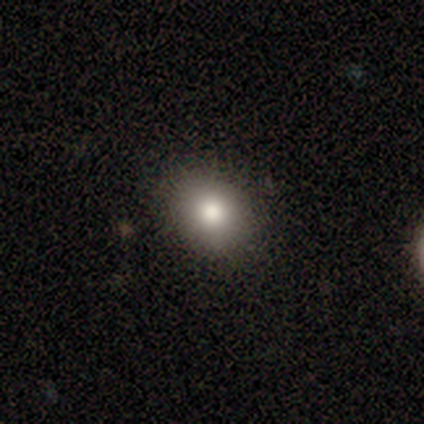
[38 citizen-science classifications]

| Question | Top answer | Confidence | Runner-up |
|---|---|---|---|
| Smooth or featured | smooth | 74% | featured or disk (13%) |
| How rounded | round | 68% | in between (29%) |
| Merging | none | 91% | minor disturbance (9%) |